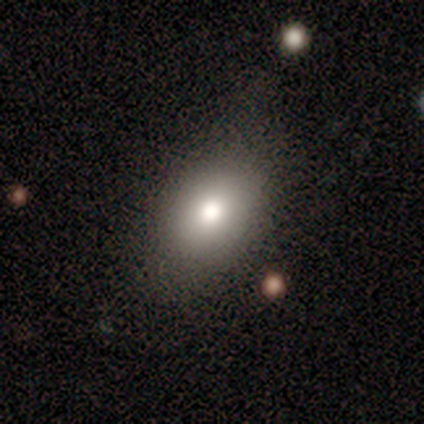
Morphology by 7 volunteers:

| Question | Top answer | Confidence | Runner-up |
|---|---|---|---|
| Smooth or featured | smooth | 86% | star or artifact (14%) |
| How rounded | in between | 100% | — |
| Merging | none | 67% | major disturbance (33%) |